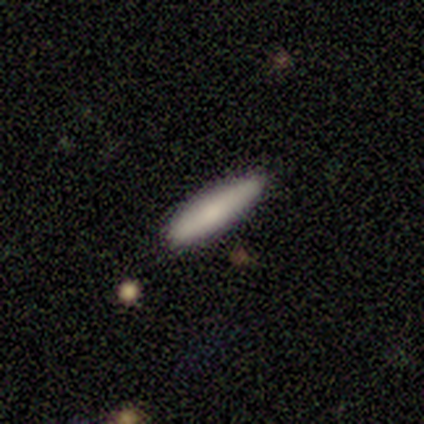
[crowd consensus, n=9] This is clearly a smooth galaxy (89%). How rounded: likely cigar-shaped (75%). Merging: clearly none (89%).